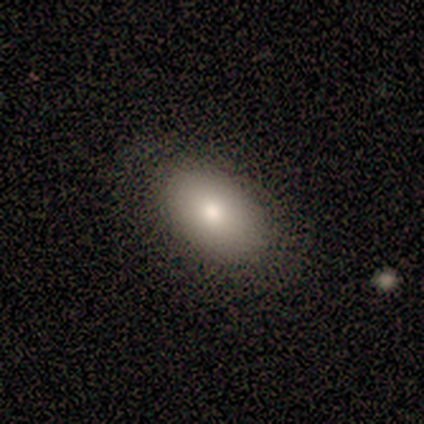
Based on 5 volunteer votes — smooth_or_featured: smooth (p=0.60) [alt: featured or disk p=0.20]
how_rounded: in between (p=0.67) [alt: round p=0.33]
merging: none (p=0.75) [alt: minor disturbance p=0.25]